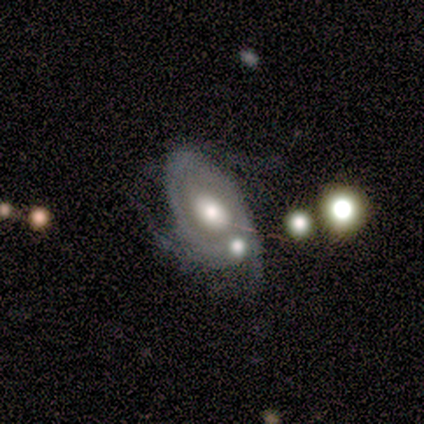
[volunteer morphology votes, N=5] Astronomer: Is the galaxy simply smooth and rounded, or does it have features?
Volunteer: featured or disk — 100%.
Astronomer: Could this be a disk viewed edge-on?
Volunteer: no — 100%.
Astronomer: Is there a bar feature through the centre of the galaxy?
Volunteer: no — 60% (runner-up: weak, 40%).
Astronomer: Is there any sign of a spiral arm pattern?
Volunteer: yes — 100%.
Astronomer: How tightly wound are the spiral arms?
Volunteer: tight — 60%.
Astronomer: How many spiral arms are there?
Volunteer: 3 — 60%.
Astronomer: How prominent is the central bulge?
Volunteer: large — 60%.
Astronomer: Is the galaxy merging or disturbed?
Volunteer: minor disturbance — 40%, tied with merger at 40%.